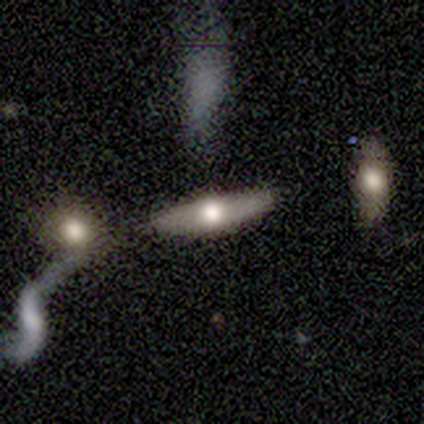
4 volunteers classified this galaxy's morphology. Overall: featured or disk (75%). Edge-on disk: yes (100%). Edge-on bulge: rounded (100%). Merging: none (100%).